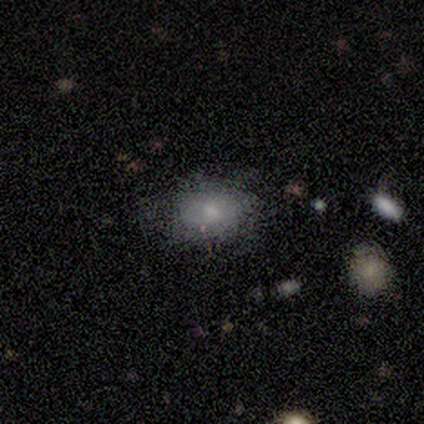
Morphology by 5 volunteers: Smooth or featured? 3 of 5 (60%) said smooth. How rounded? 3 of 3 (100%) said in between. Merging? 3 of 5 (60%) said none.